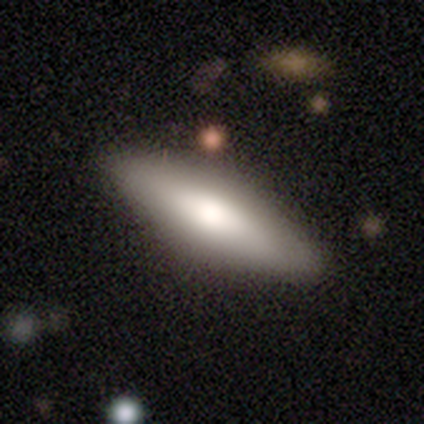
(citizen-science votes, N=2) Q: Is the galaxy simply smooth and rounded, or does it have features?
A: smooth — 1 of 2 (50%, tied with featured or disk).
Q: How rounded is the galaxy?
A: in between — 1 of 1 (100%).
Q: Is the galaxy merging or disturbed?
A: none — 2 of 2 (100%).